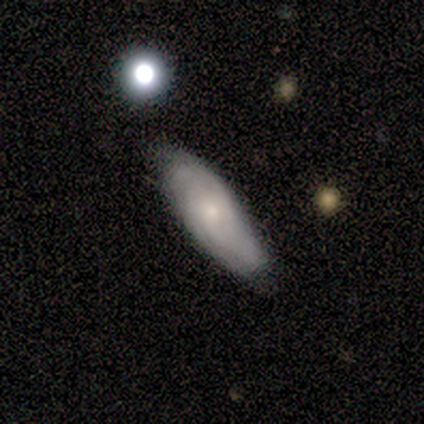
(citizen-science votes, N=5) Smooth or featured: smooth — 80% (featured or disk — 20%)
How rounded: in between — 75% (cigar-shaped — 25%)
Merging: minor disturbance — 60% (none — 40%)